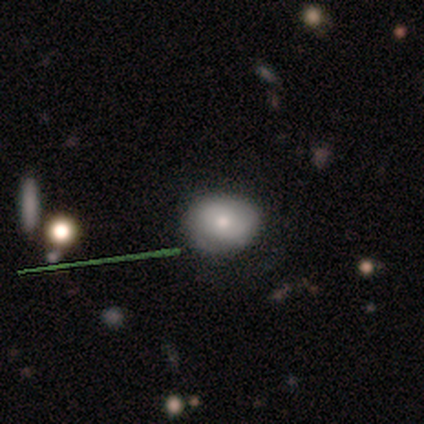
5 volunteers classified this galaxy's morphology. A smooth galaxy with no disk features (100%) that is in between round and cigar-shaped (100%).

Vote fractions:
- Smooth or featured? smooth: 100% / featured or disk: 0% / star or artifact: 0%
- How rounded? in between: 100% / round: 0% / cigar-shaped: 0%
- Merging? none: 80% / minor disturbance: 20% / major disturbance: 0% / merger: 0%